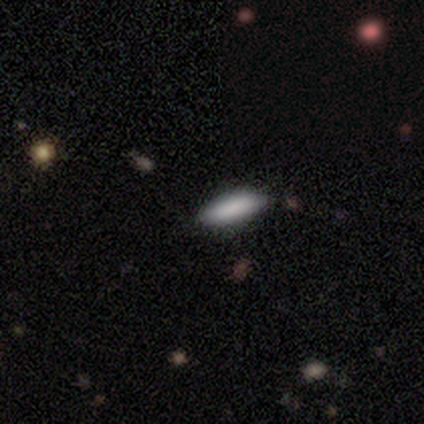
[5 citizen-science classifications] This is clearly a smooth galaxy (80%). How rounded: likely cigar-shaped (75%). Merging: likely none (75%).